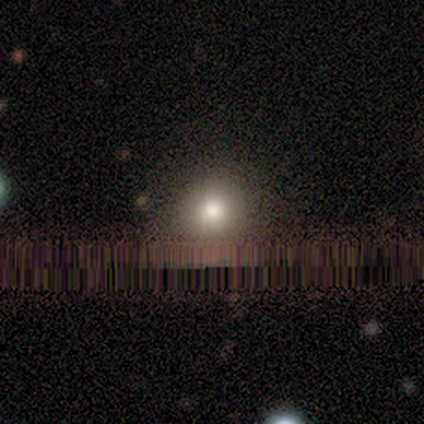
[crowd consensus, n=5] This appears to be a smooth galaxy with no disk features (100%) that is round (100%). Merging: none (80%).